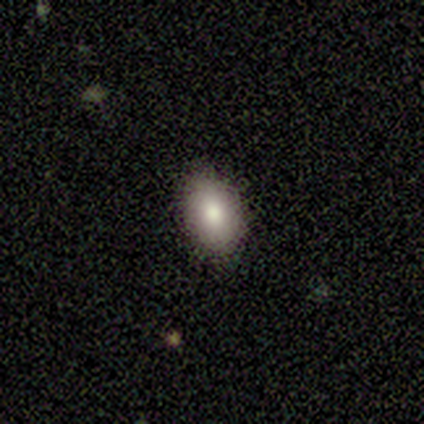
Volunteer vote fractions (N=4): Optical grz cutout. It shows a smooth galaxy with no disk features (100%) that is round (50%, tied with in between). Merging: none (100%).